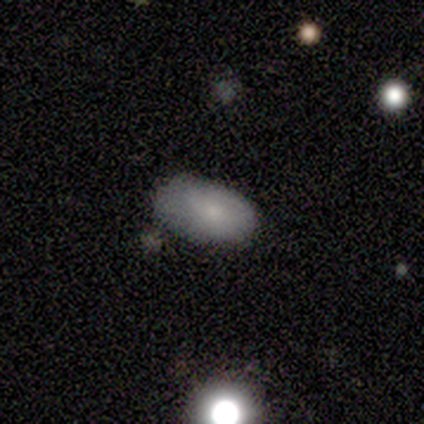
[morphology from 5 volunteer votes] Q: Smooth or featured?
A: featured or disk (60%); runner-up: smooth (40%)
Q: Edge-on disk?
A: no (100%)
Q: Bar?
A: no (100%)
Q: Spiral arms?
A: no (100%)
Q: Bulge size?
A: small (67%); runner-up: moderate (33%)
Q: Merging?
A: none (80%); runner-up: merger (20%)